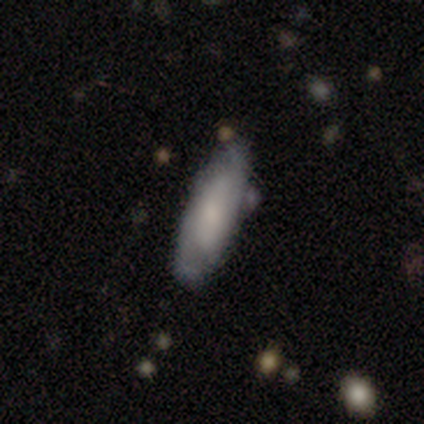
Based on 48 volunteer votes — A smooth galaxy with no disk features (60%) that is cigar-shaped (66%). Merging: none (81%).